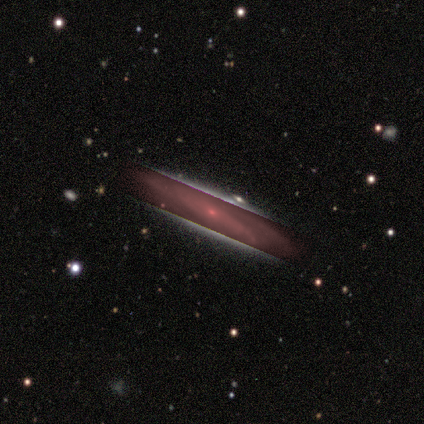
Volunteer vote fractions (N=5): Morphology: type=featured or disk (60%); edge-on=no (67%); bar=no (100%); spiral arms=yes (100%); winding=medium (100%); arm count=2 (100%); bulge=small (100%); merging=none (100%).